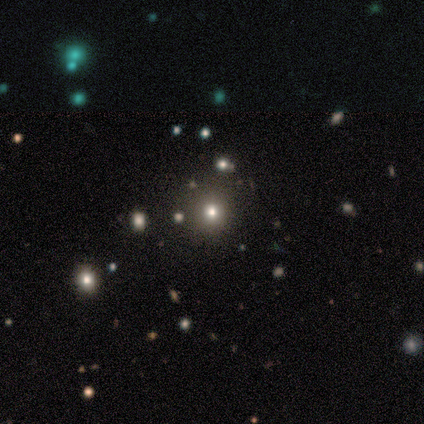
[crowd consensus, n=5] This appears to be a smooth galaxy with no disk features (80%) that is round (100%). Merging: none (75%).